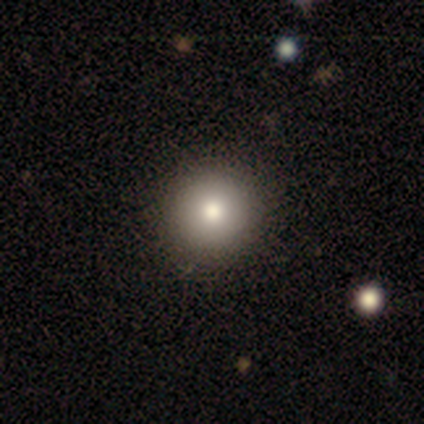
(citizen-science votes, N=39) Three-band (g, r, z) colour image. It shows a smooth galaxy with no disk features (85%) that is round (100%). Merging: none (69%).